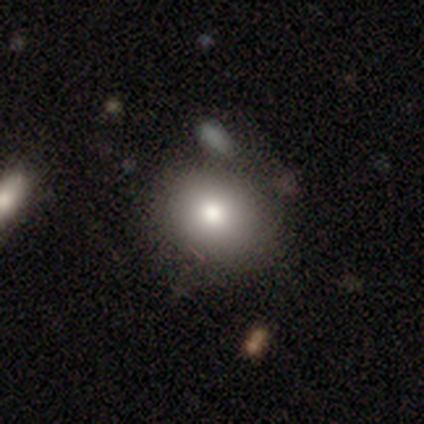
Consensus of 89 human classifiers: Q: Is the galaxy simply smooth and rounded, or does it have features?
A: smooth — 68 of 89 (76%).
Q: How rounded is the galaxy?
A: round — 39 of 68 (57%).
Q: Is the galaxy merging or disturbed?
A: none — 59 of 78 (76%).